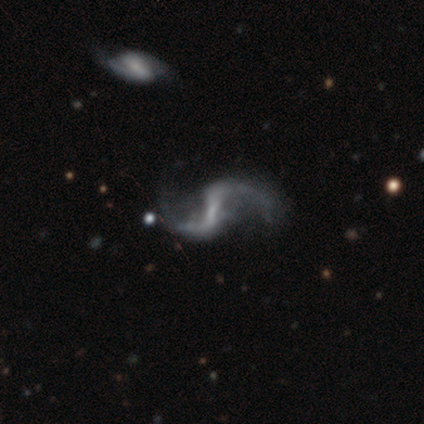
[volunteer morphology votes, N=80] A featured or disk galaxy (94%) with a strong bar (43%), 2 (97%) loose (94%) spiral arms (97%) and no central bulge (51%).

Vote fractions:
- Smooth or featured? featured or disk: 94% / smooth: 4% / star or artifact: 2%
- Edge-on disk? no: 99% / yes: 1%
- Bar? strong: 43% / weak: 42% / no: 15%
- Spiral arms? yes: 97% / no: 3%
- Spiral winding? loose: 94% / medium: 6% / tight: 0%
- Spiral arm count? 2: 97% / 1: 1% / can't tell: 1% / 3: 0% / 4: 0% / more than 4: 0%
- Bulge size? none: 51% / small: 41% / moderate: 8% / dominant: 0% / large: 0%
- Merging? none: 35% / major disturbance: 12% / minor disturbance: 9% / merger: 6%